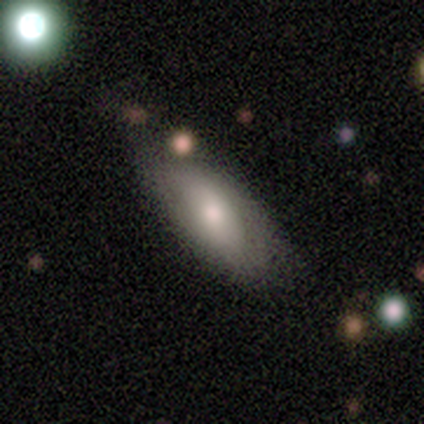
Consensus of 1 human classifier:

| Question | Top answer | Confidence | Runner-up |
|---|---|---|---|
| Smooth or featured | star or artifact | 100% | — |